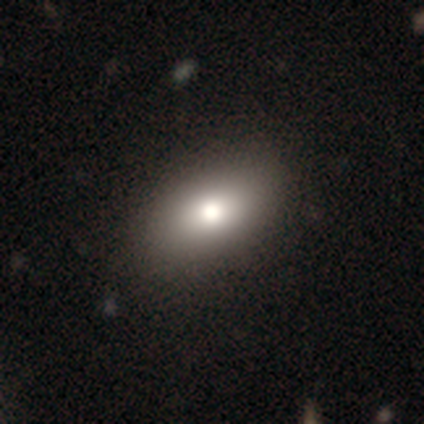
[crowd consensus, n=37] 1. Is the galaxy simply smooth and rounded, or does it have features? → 84% smooth, 14% featured or disk, 3% star or artifact.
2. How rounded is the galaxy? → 90% in between, 10% round, 0% cigar-shaped.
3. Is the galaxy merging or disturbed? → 64% none, 0% minor disturbance, 0% major disturbance, 0% merger.